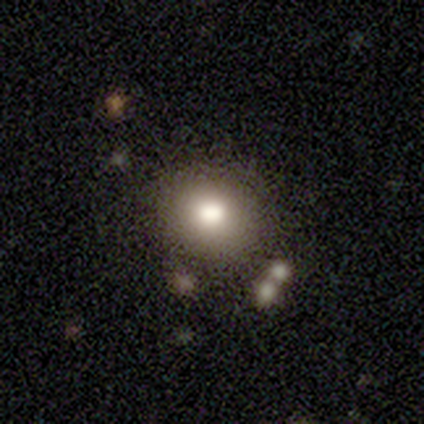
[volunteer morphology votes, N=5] This appears to be a smooth galaxy with no disk features (80%) that is round (75%). Merging: none (50%).